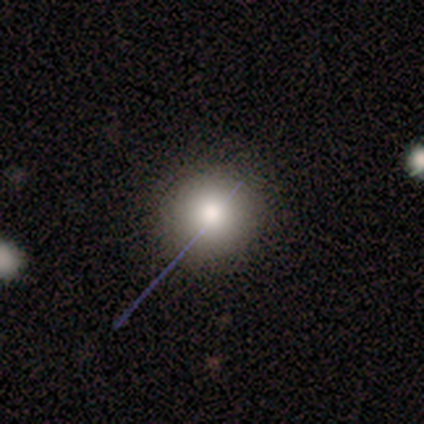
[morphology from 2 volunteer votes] Overall: smooth (50%, tied with star or artifact). How rounded: round (100%). Merging: none (100%).